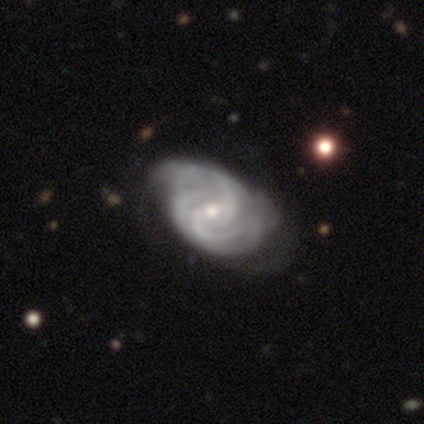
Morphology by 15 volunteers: Q: Smooth or featured?
A: featured or disk (87%); runner-up: smooth (7%)
Q: Edge-on disk?
A: no (92%); runner-up: yes (8%)
Q: Bar?
A: weak (50%); tied with: no (50%)
Q: Spiral arms?
A: yes (100%)
Q: Spiral winding?
A: medium (58%); runner-up: tight (42%)
Q: Spiral arm count?
A: 2 (58%); runner-up: 3 (25%)
Q: Bulge size?
A: small (58%); runner-up: moderate (33%)
Q: Merging?
A: none (64%); runner-up: minor disturbance (21%)